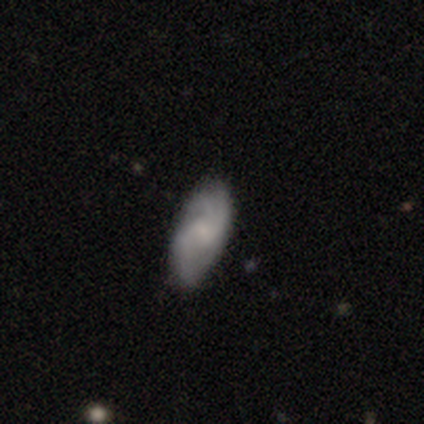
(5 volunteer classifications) Smooth or featured: featured or disk — 80% (smooth — 20%)
Edge-on disk: no — 100%
Bar: no — 100%
Spiral arms: yes — 100%
Spiral winding: medium — 50% (tied with loose — 50%)
Spiral arm count: 3 — 75% (2 — 25%)
Bulge size: none — 50% (moderate — 25%)
Merging: none — 100%